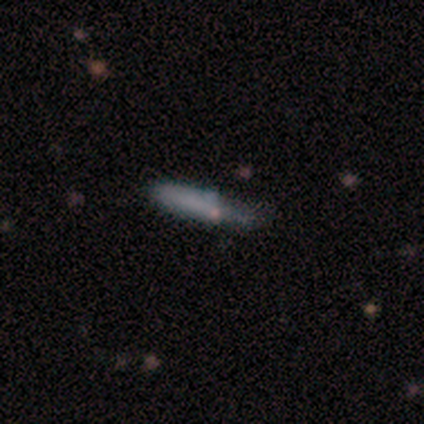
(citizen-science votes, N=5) A smooth galaxy with no disk features (100%) that is cigar-shaped (60%). Merging: none (40%, tied with major disturbance).